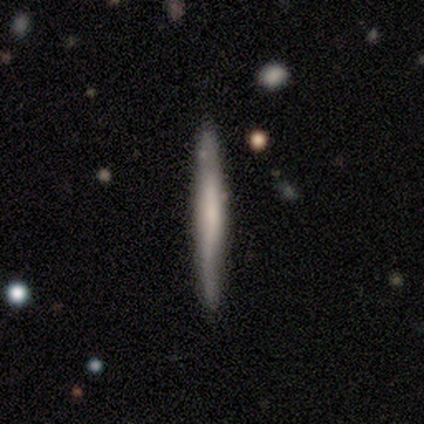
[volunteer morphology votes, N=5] smooth 80%, featured or disk 20%, star or artifact 0%. Down the decision tree: how rounded — cigar-shaped (100%); merging — none (80%).